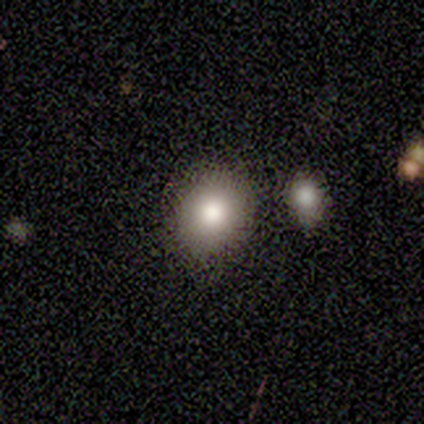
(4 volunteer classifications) This appears to be a smooth galaxy with no disk features (75%) that is round (67%). Merging: none (50%, tied with minor disturbance).